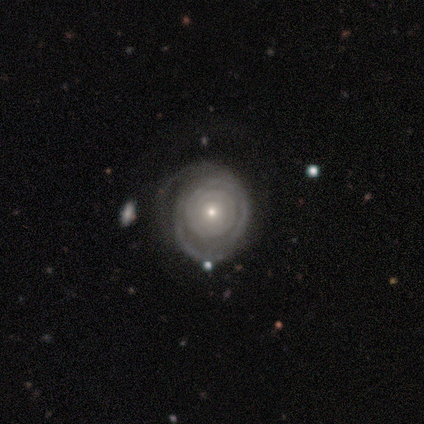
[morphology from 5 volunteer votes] smooth_or_featured: featured or disk (p=1.00)
disk_edge_on: no (p=1.00)
bar: no (p=0.80) [alt: weak p=0.20]
has_spiral_arms: yes (p=1.00)
spiral_winding: tight (p=1.00)
spiral_arm_count: can't tell (p=1.00)
bulge_size: small (p=0.60) [alt: moderate p=0.40]
merging: none (p=0.40) [tied with: minor disturbance p=0.40]